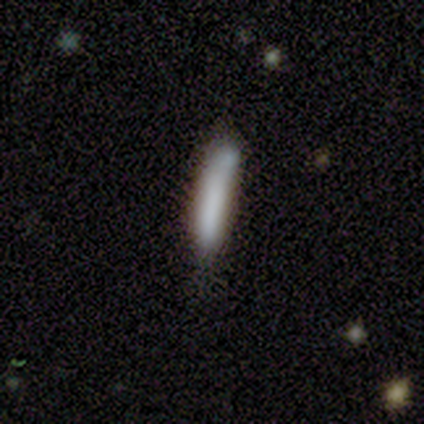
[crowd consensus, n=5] This is clearly a smooth galaxy (100%). How rounded: clearly cigar-shaped (100%). Merging: likely none (60%).